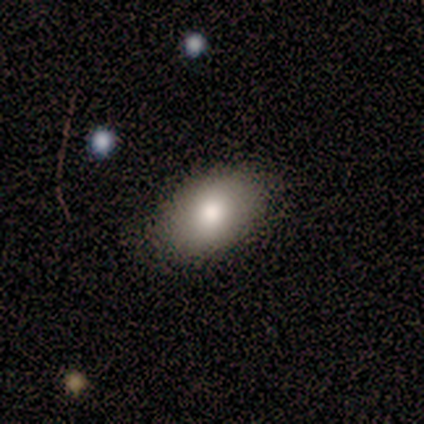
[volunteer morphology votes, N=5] smooth_or_featured: smooth (p=1.00)
how_rounded: in between (p=0.80) [alt: round p=0.20]
merging: none (p=1.00)